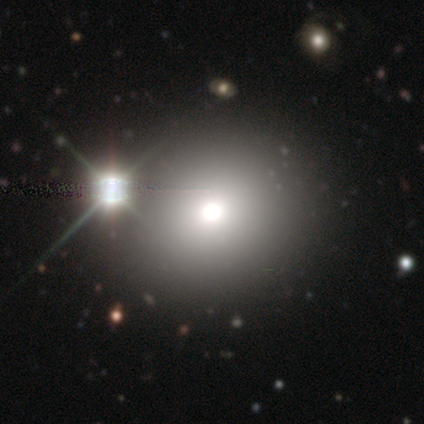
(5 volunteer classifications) smooth 60%, star or artifact 40%, featured or disk 0%. Down the decision tree: how rounded — round (100%); merging — none (100%).